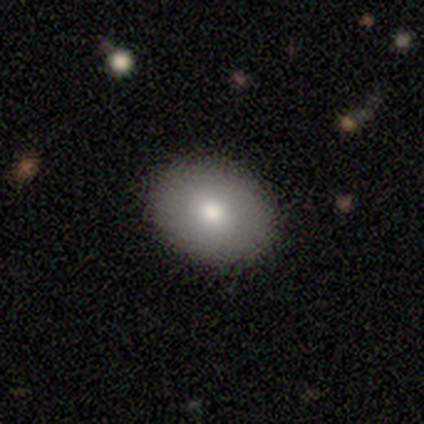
smooth 50%, featured or disk 30%, star or artifact 20%. Down the decision tree: how rounded — in between (60%); merging — none (88%).